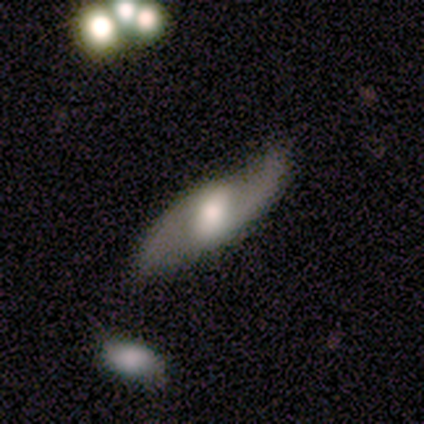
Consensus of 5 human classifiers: smooth-or-featured: featured or disk: 100% | smooth: 0% | star or artifact: 0%
  disk-edge-on: no: 60% | yes: 40%
    bar: weak: 67% | strong: 33% | no: 0%
    has-spiral-arms: yes: 100% | no: 0%
      spiral-winding: loose: 100% | tight: 0% | medium: 0%
      spiral-arm-count: 2: 100% | 1: 0% | 3: 0% | 4: 0% | more than 4: 0% | can't tell: 0%
    bulge-size: moderate: 100% | dominant: 0% | large: 0% | small: 0% | none: 0%
  merging: minor disturbance: 80% | none: 20% | major disturbance: 0% | merger: 0%